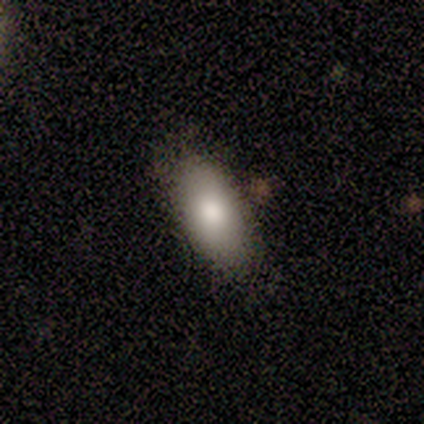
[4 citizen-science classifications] smooth-or-featured: smooth: 75% | featured or disk: 25% | star or artifact: 0%
  how-rounded: in between: 67% | cigar-shaped: 33% | round: 0%
  merging: none: 100% | minor disturbance: 0% | major disturbance: 0% | merger: 0%